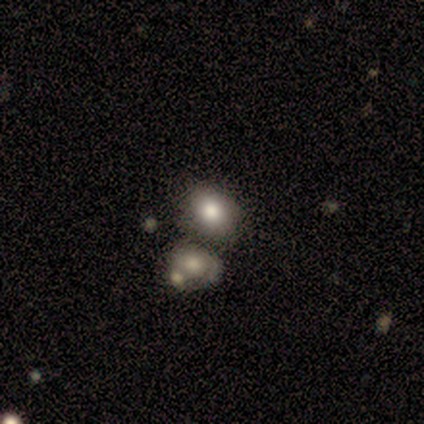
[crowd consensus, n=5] smooth_or_featured: smooth (p=0.60) [alt: star or artifact p=0.40]
how_rounded: round (p=0.67) [alt: in between p=0.33]
merging: merger (p=0.67) [alt: none p=0.33]